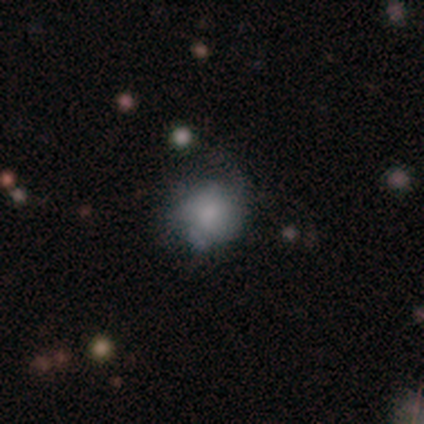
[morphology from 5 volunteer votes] This appears to be a smooth galaxy with no disk features (40%, tied with featured or disk) that is round (100%). Merging: minor disturbance (75%).